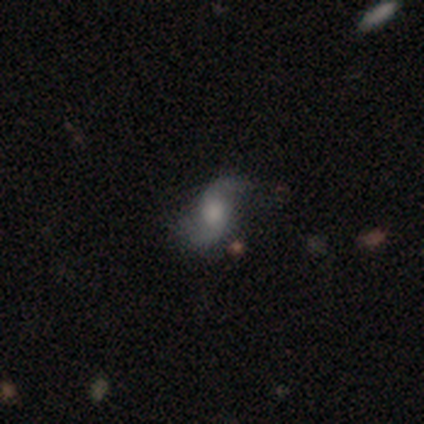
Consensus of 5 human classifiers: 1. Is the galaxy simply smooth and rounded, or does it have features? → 100% featured or disk, 0% smooth, 0% star or artifact.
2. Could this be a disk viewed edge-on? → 80% no, 20% yes.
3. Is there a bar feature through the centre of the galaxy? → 75% no, 25% weak, 0% strong.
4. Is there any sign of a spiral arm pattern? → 75% yes, 25% no.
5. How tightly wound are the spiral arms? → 100% loose, 0% tight, 0% medium.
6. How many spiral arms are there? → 100% 2, 0% 1, 0% 3, 0% 4, 0% more than 4, 0% can't tell.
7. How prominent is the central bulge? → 50% large, 25% moderate, 25% none, 0% dominant, 0% small.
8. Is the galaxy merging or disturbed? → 60% none, 20% minor disturbance, 20% merger, 0% major disturbance.